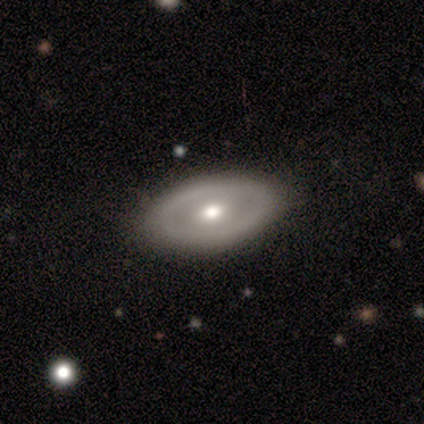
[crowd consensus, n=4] Morphology: type=smooth (50%, tied with featured or disk); roundness=in between (100%); merging=none (50%, tied with minor disturbance).